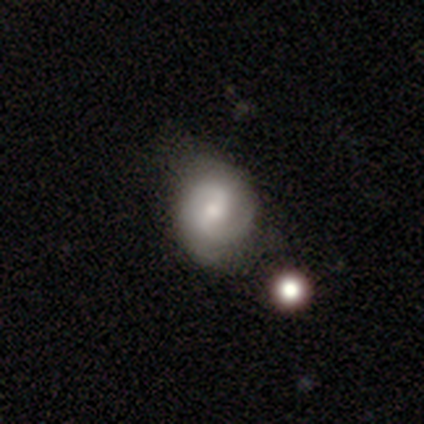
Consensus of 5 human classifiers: Morphology: type=featured or disk (80%); edge-on=no (100%); bar=weak (75%); spiral arms=yes (100%); winding=tight (50%, tied with medium); arm count=2 (75%); bulge=moderate (50%, tied with small); merging=none (80%).